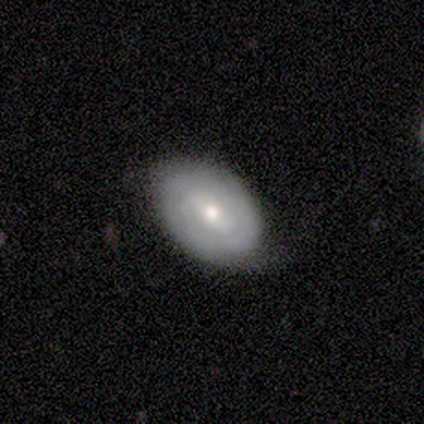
Volunteers were most divided on "bulge size" (2-way tie): moderate: 50%, small: 50%, dominant: 0%, large: 0%, none: 0%. More confident: edge-on disk — no (100%); smooth or featured — featured or disk (80%); merging — none (80%); spiral arms — no (75%); bar — weak (50%).